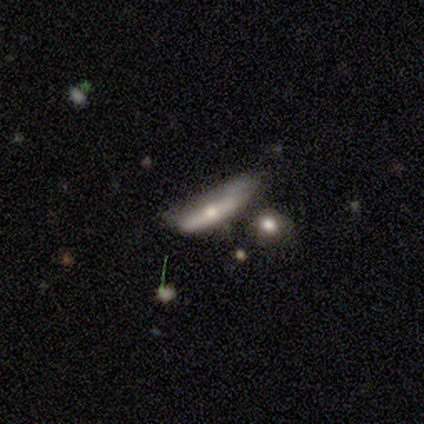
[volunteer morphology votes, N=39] Smooth or featured: featured or disk — 54% (smooth — 38%)
Edge-on disk: yes — 62% (no — 38%)
Edge-on bulge: rounded — 77% (none — 23%)
Merging: none — 39% (minor disturbance — 31%)